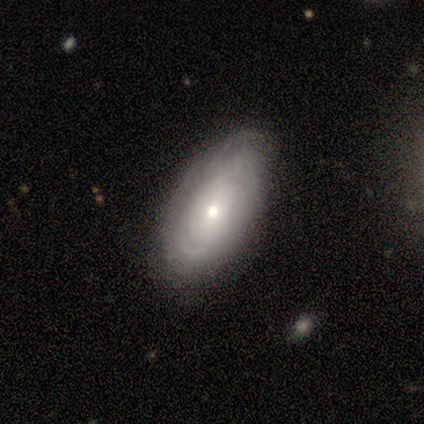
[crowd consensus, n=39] A featured or disk galaxy (77%) with no bar (79%), tight (78%) spiral arms (93%) and a moderate central bulge (48%, tied with small).

Vote fractions:
- Smooth or featured? featured or disk: 77% / smooth: 21% / star or artifact: 3%
- Edge-on disk? no: 97% / yes: 3%
- Bar? no: 79% / weak: 17% / strong: 3%
- Spiral arms? yes: 93% / no: 7%
- Spiral winding? tight: 78% / medium: 22% / loose: 0%
- Spiral arm count? can't tell: 74% / 2: 15% / more than 4: 7% / 3: 4% / 1: 0% / 4: 0%
- Bulge size? moderate: 48% (tied) / small: 48% (tied) / large: 3% / dominant: 0% / none: 0%
- Merging? none: 50% / minor disturbance: 21% / major disturbance: 0% / merger: 0%